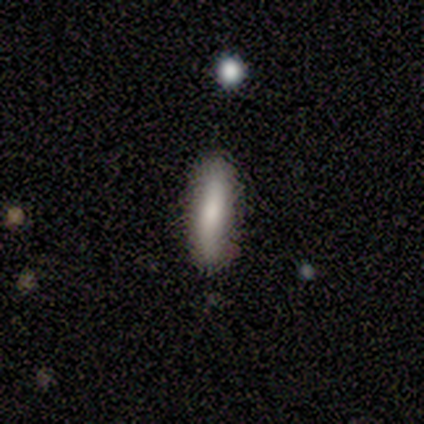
Smooth or featured: smooth — 100%
How rounded: in between — 50% (tied with cigar-shaped — 50%)
Merging: none — 100%